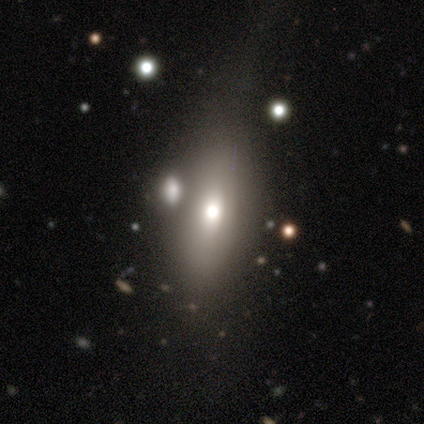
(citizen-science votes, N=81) This is likely a smooth galaxy (63%). How rounded: clearly in between (84%). Merging: marginally merger (34%).